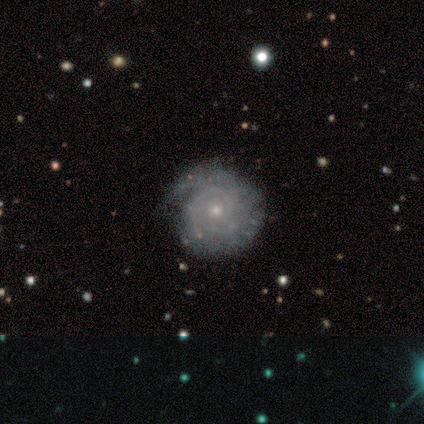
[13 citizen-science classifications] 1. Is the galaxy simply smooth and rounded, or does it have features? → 100% featured or disk, 0% smooth, 0% star or artifact.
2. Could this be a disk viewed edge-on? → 100% no, 0% yes.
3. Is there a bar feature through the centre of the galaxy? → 92% no, 8% weak, 0% strong.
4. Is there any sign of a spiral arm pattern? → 100% yes, 0% no.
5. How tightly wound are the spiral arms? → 92% tight, 8% medium, 0% loose.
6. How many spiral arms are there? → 46% can't tell, 23% 2, 23% 3, 8% 1, 0% 4, 0% more than 4.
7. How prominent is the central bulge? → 69% small, 31% moderate, 0% dominant, 0% large, 0% none.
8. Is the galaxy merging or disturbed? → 69% none, 31% minor disturbance, 0% major disturbance, 0% merger.